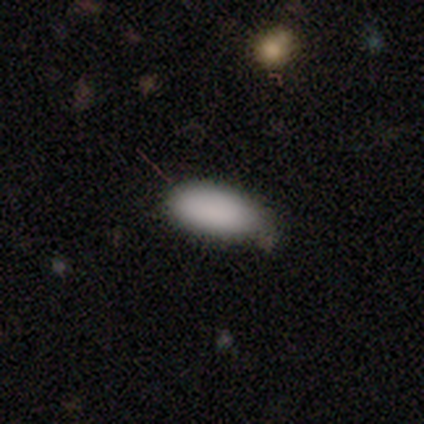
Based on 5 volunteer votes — Smooth or featured: smooth — 100%
How rounded: in between — 80% (round — 20%)
Merging: none — 60% (minor disturbance — 40%)